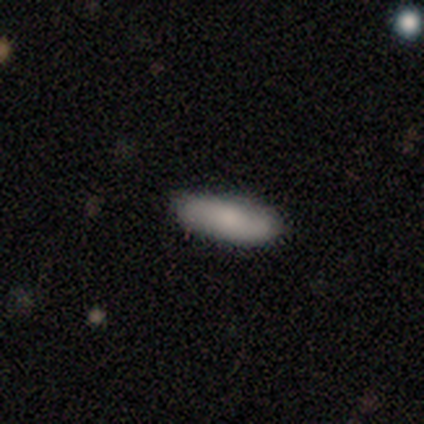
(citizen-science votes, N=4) A smooth galaxy with no disk features (75%) that is in between round and cigar-shaped (67%). Merging: none (50%, tied with minor disturbance).